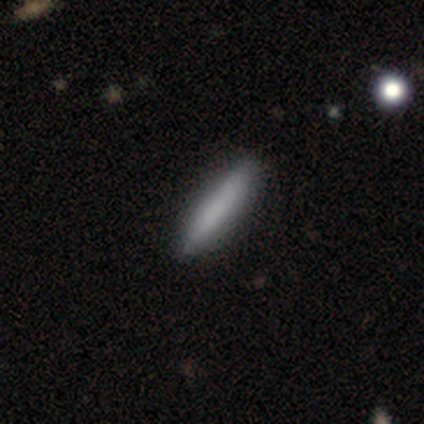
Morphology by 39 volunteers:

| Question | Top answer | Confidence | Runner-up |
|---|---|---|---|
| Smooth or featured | smooth | 69% | featured or disk (28%) |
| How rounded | cigar-shaped | 81% | in between (19%) |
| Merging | none | 66% | minor disturbance (3%) |